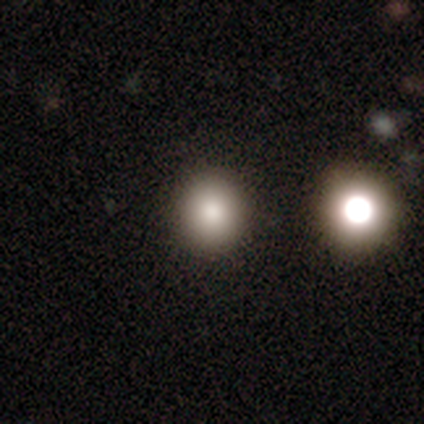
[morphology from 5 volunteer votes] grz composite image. It shows a smooth galaxy with no disk features (80%) that is round (100%). Merging: none (100%).